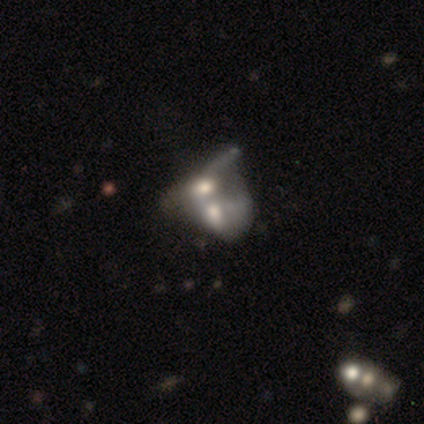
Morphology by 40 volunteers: smooth_or_featured: smooth (p=0.47) [tied with: featured or disk p=0.47]
how_rounded: in between (p=0.74) [alt: round p=0.26]
merging: merger (p=0.76) [alt: major disturbance p=0.08]